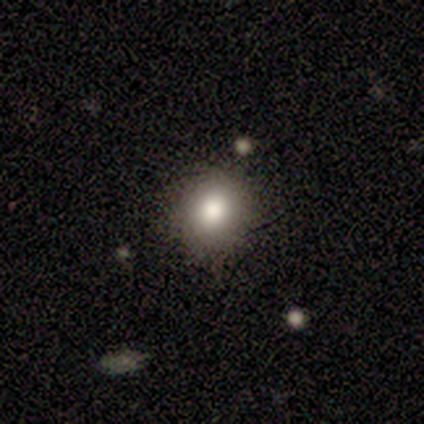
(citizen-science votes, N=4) Overall: smooth (50%, tied with featured or disk). How rounded: round (50%, tied with in between). Merging: none (100%).